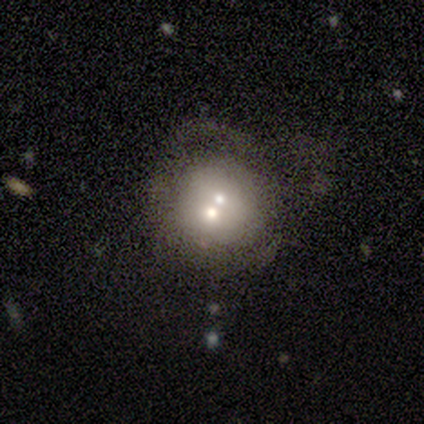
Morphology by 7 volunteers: featured or disk 43%, smooth 29%, star or artifact 29%. Down the decision tree: edge-on disk — no (100%); bar — no (100%); spiral arms — no (100%); bulge size — large (33%, tied with moderate and small); merging — none (40%, tied with merger).